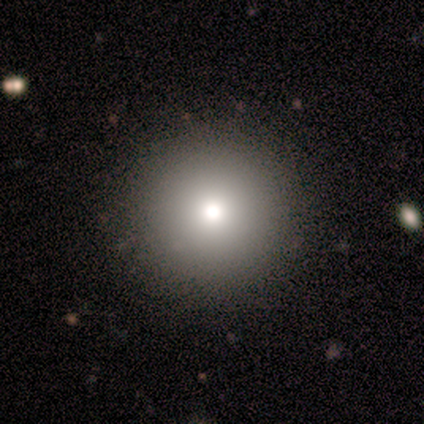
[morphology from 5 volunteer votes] Smooth or featured: smooth — 60% (featured or disk — 20%)
How rounded: round — 100%
Merging: none — 100%